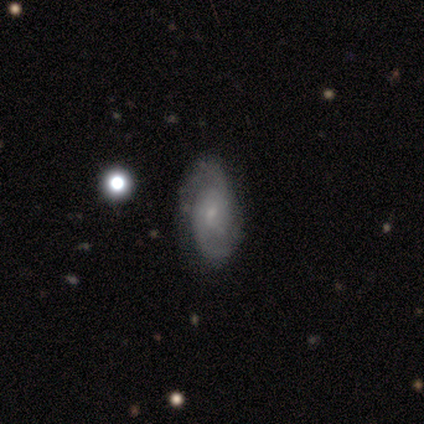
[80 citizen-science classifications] Smooth or featured? 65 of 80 (81%) said featured or disk. Edge-on disk? 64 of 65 (98%) said no. Bar? 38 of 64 (59%) said no. Spiral arms? 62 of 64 (97%) said yes. Spiral winding? 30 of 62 (48%) said medium. Spiral arm count? 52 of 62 (84%) said 2. Bulge size? 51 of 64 (80%) said small. Merging? 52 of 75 (69%) said none.